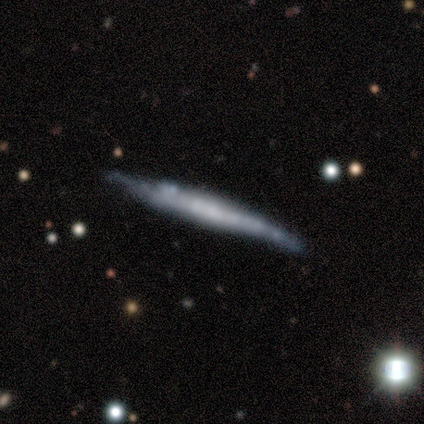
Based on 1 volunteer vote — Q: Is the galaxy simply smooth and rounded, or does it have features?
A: smooth — 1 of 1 (100%).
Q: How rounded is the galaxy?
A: cigar-shaped — 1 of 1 (100%).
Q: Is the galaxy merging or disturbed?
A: none — 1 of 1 (100%).